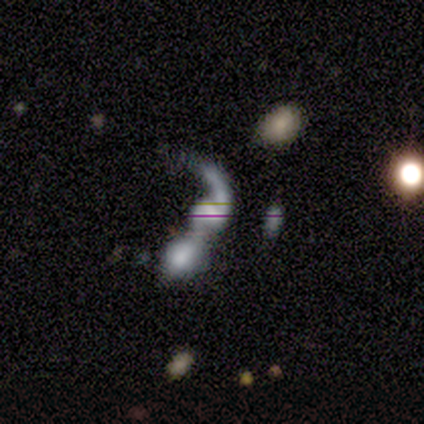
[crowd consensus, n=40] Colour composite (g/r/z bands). It shows a featured or disk galaxy (68%) with no bar (56%), 2 (48%) loose (91%) spiral arms (85%) and a moderate central bulge (30%, tied with none). Merging: merger (89%).